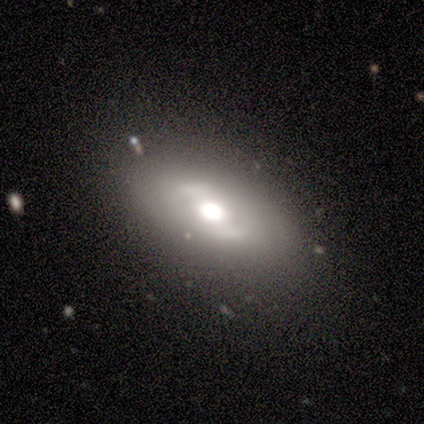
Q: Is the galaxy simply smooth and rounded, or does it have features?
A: featured or disk — 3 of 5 (60%).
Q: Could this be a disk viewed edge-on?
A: no — 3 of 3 (100%).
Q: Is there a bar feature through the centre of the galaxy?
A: strong — 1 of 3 (33%, tied with weak and no).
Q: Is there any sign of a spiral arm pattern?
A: no — 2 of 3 (67%).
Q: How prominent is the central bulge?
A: large — 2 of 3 (67%).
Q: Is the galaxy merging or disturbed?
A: none — 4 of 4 (100%).